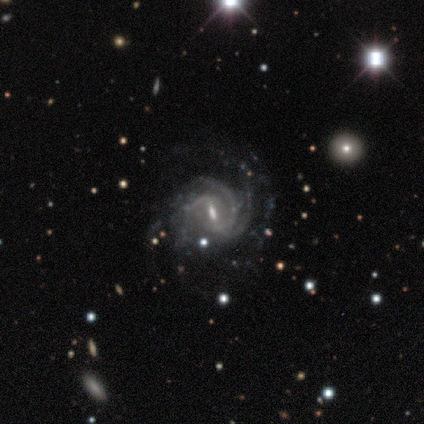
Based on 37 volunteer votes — This is clearly a featured or disk galaxy (92%). It is clearly not viewed edge-on (100%). Bar: possibly weak (59%). Spiral arm pattern: clearly yes (100%). Spiral arm count: marginally 3 (29%). Spiral winding: possibly medium (53%). Central bulge: possibly small (53%). Merging: possibly none (54%).